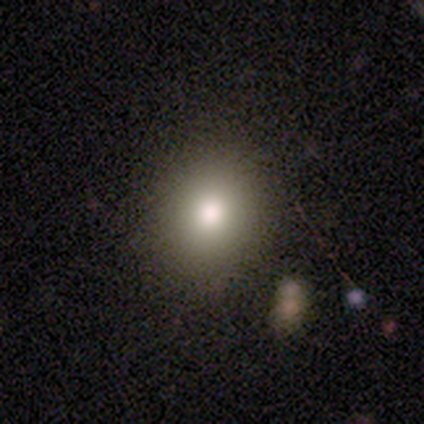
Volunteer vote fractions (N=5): smooth 60%, featured or disk 20%, star or artifact 20%. Down the decision tree: how rounded — in between (67%); merging — none (100%).